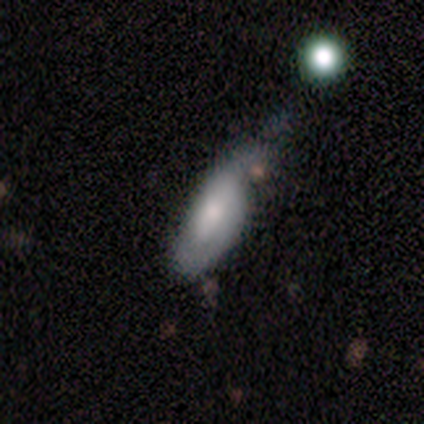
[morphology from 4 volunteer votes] smooth_or_featured: star or artifact (p=0.50) [alt: smooth p=0.25]